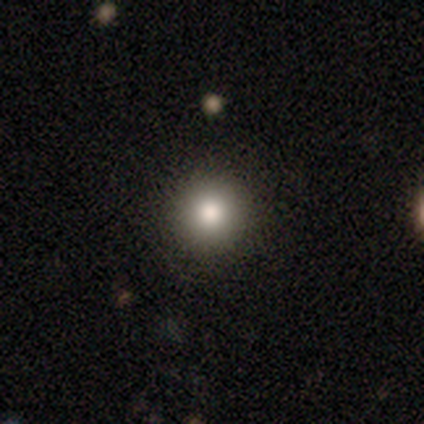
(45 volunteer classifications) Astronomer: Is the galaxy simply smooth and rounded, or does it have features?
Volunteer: smooth — 82%.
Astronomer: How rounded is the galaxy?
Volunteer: round — 97%.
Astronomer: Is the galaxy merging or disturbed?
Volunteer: none — 92%.